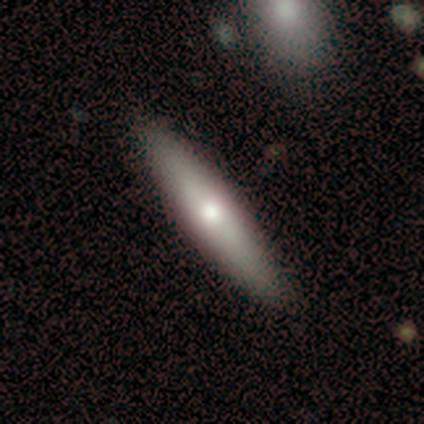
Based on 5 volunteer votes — smooth 60%, featured or disk 40%, star or artifact 0%. Down the decision tree: how rounded — cigar-shaped (67%); merging — none (80%).